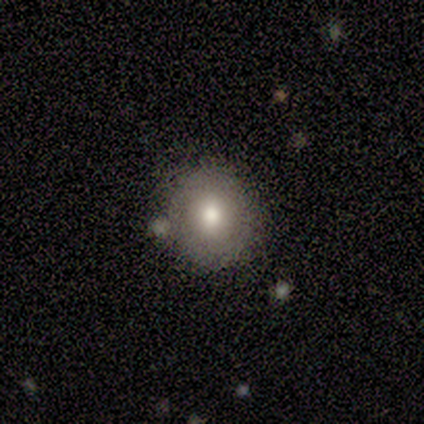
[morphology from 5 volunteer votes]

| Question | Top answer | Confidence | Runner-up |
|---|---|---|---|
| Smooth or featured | smooth | 100% | — |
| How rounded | round | 80% | in between (20%) |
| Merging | none | 100% | — |